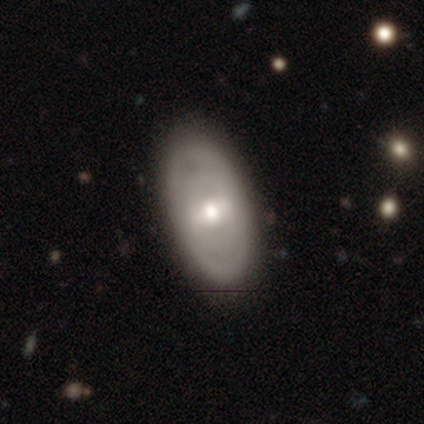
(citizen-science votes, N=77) featured or disk 66%, smooth 29%, star or artifact 5%. Down the decision tree: edge-on disk — no (92%); bar — weak (53%); spiral arms — no (66%); bulge size — moderate (74%); merging — none (42%).